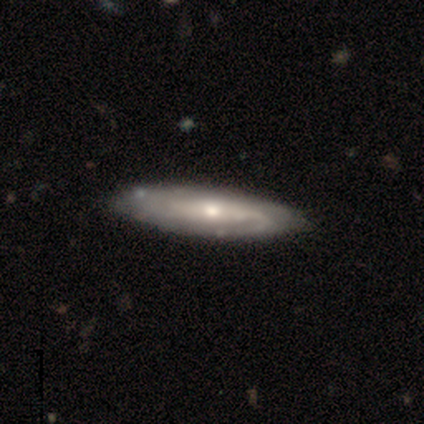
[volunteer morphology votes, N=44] Smooth or featured: featured or disk — 89% (smooth — 11%)
Edge-on disk: no — 69% (yes — 31%)
Bar: no — 52% (weak — 26%)
Spiral arms: yes — 81% (no — 19%)
Spiral winding: tight — 45% (tied with medium — 45%)
Spiral arm count: 2 — 45% (can't tell — 27%)
Bulge size: moderate — 56% (small — 37%)
Merging: none — 80% (minor disturbance — 18%)